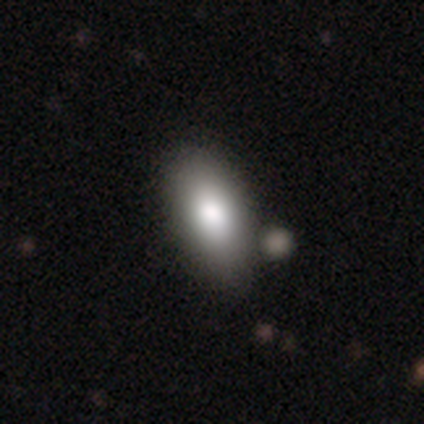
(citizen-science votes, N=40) smooth-or-featured: smooth: 95% | featured or disk: 2% | star or artifact: 2%
  how-rounded: in between: 97% | cigar-shaped: 3% | round: 0%
  merging: none: 62% | merger: 15% | minor disturbance: 3% | major disturbance: 0%